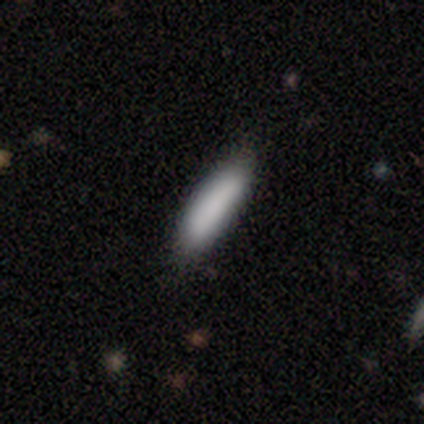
Volunteers were most divided on "how rounded": cigar-shaped: 71%, in between: 29%, round: 0%. More confident: smooth or featured — smooth (88%); merging — none (85%).